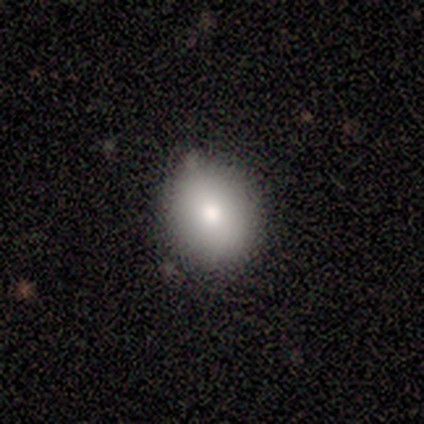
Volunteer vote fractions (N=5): Volunteers were most divided on "how rounded": round: 60%, in between: 40%, cigar-shaped: 0%. More confident: smooth or featured — smooth (100%); merging — none (100%).